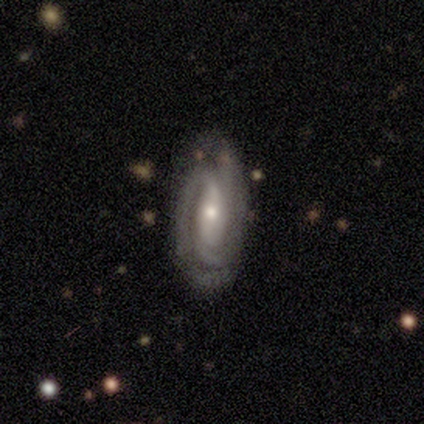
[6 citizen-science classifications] This is clearly a featured or disk galaxy (83%). It is clearly not viewed edge-on (100%). Bar: marginally weak (40%, tied with no). Spiral arm pattern: clearly yes (100%). Spiral arm count: marginally 1 (40%). Spiral winding: marginally tight (40%, tied with medium). Central bulge: likely small (60%). Merging: clearly none (100%).